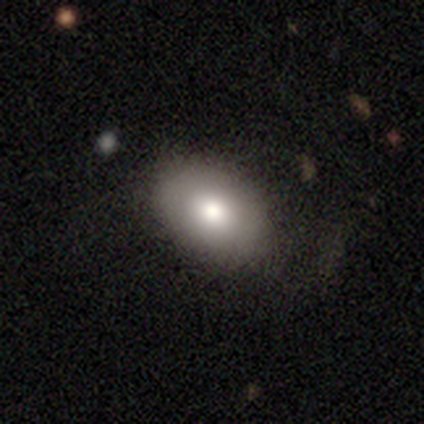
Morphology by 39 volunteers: Smooth or featured?
  - smooth: 85% *
  - featured or disk: 13%
  - star or artifact: 3%
How rounded?
  - in between: 79% *
  - round: 21%
  - cigar-shaped: 0%
Merging?
  - none: 68% *
  - minor disturbance: 21%
  - major disturbance: 11%
  - merger: 0%